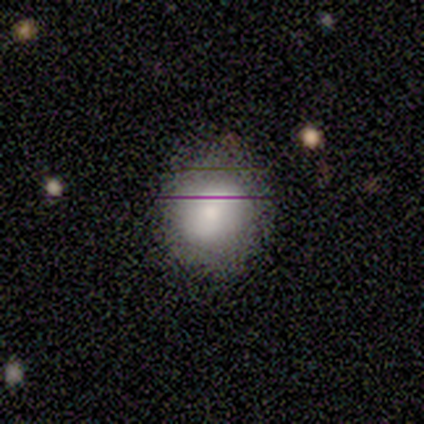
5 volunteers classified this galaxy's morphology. A smooth galaxy with no disk features (40%, tied with star or artifact) that is in between round and cigar-shaped (100%).

Vote fractions:
- Smooth or featured? smooth: 40% (tied) / star or artifact: 40% (tied) / featured or disk: 20%
- How rounded? in between: 100% / round: 0% / cigar-shaped: 0%
- Merging? none: 67% / minor disturbance: 33% / major disturbance: 0% / merger: 0%